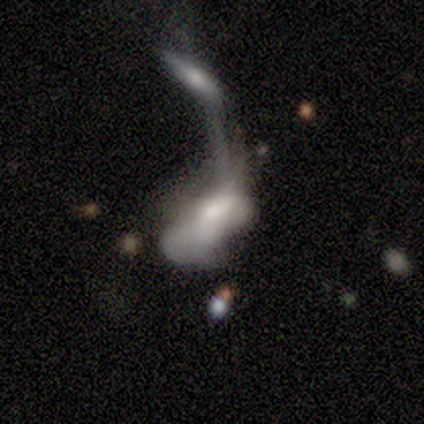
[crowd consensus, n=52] Q: Smooth or featured?
A: featured or disk (48%); runner-up: smooth (46%)
Q: Edge-on disk?
A: no (100%)
Q: Bar?
A: no (76%); runner-up: weak (16%)
Q: Spiral arms?
A: no (84%); runner-up: yes (16%)
Q: Bulge size?
A: moderate (64%); runner-up: large (20%)
Q: Merging?
A: merger (76%); runner-up: major disturbance (22%)